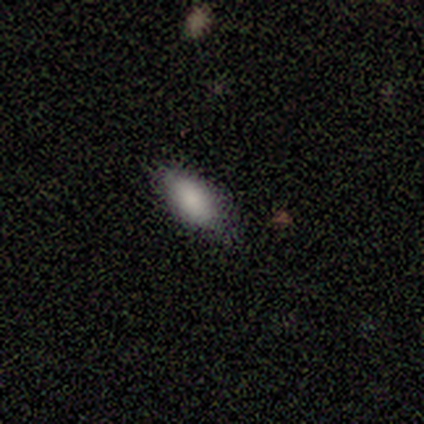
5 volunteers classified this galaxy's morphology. A smooth galaxy with no disk features (100%) that is in between round and cigar-shaped (100%).

Vote fractions:
- Smooth or featured? smooth: 100% / featured or disk: 0% / star or artifact: 0%
- How rounded? in between: 100% / round: 0% / cigar-shaped: 0%
- Merging? none: 100% / minor disturbance: 0% / major disturbance: 0% / merger: 0%